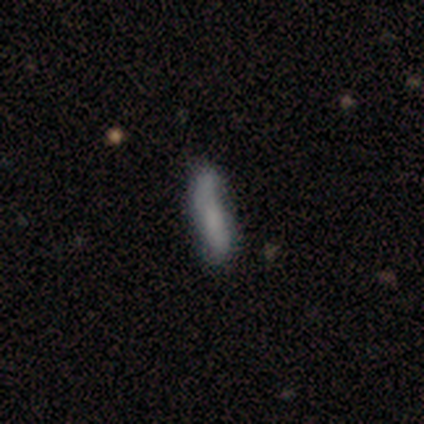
Smooth or featured?
  - featured or disk: 80% *
  - smooth: 20%
  - star or artifact: 0%
Edge-on disk?
  - yes: 50% * (tied)
  - no: 50% * (tied)
Edge-on bulge?
  - none: 100% *
  - boxy: 0%
  - rounded: 0%
Merging?
  - none: 60% *
  - minor disturbance: 40%
  - major disturbance: 0%
  - merger: 0%